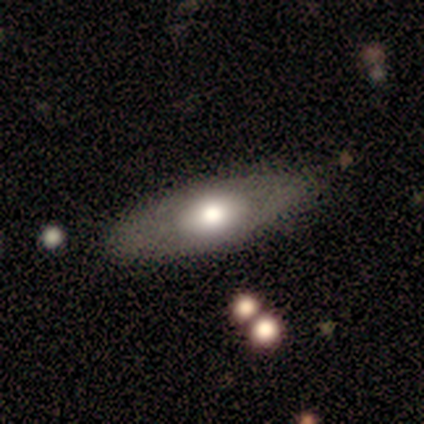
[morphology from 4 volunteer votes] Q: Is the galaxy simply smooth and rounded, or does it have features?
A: smooth — 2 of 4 (50%).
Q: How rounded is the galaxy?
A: in between — 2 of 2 (100%).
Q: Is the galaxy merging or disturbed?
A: none — 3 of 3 (100%).